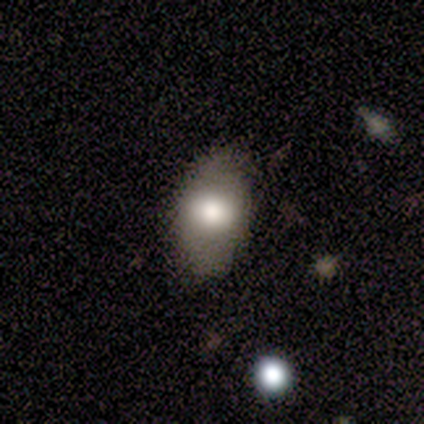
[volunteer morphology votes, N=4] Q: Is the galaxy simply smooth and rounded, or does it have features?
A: smooth — 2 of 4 (50%, tied with featured or disk).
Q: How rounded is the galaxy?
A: in between — 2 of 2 (100%).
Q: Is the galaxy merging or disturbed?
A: none — 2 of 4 (50%, tied with minor disturbance).